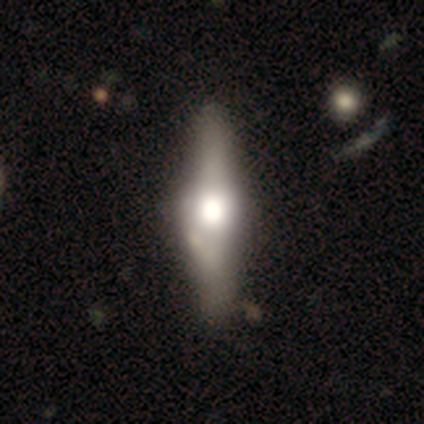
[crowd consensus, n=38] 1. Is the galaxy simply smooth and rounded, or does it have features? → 71% featured or disk, 29% smooth, 0% star or artifact.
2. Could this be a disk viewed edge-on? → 96% yes, 4% no.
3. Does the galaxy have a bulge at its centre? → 96% rounded, 4% boxy, 0% none.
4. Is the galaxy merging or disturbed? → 50% none, 13% minor disturbance, 8% merger, 5% major disturbance.